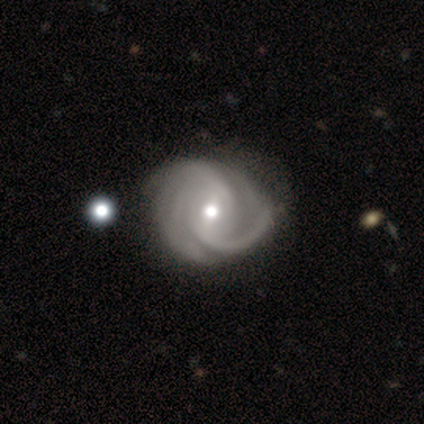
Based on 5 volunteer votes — smooth_or_featured: featured or disk (p=1.00)
disk_edge_on: no (p=1.00)
bar: no (p=0.60) [alt: weak p=0.40]
has_spiral_arms: yes (p=1.00)
spiral_winding: medium (p=0.80) [alt: loose p=0.20]
spiral_arm_count: 2 (p=1.00)
bulge_size: moderate (p=0.60) [alt: small p=0.40]
merging: none (p=0.60) [alt: minor disturbance p=0.20]